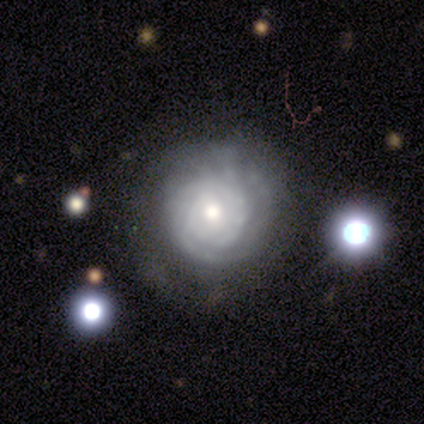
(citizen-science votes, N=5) A featured or disk galaxy (80%) with no bar (100%), tight (67%) spiral arms (75%) and a moderate central bulge (50%, tied with small). Merging: none (80%).